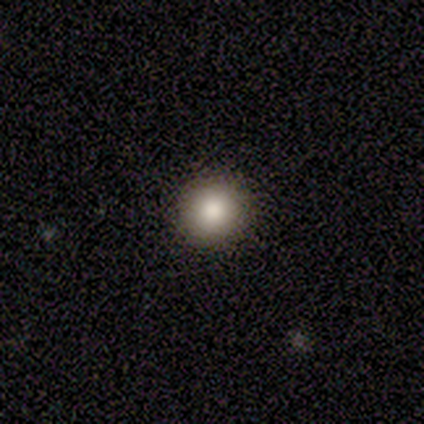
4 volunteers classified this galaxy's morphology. smooth_or_featured: smooth (p=1.00)
how_rounded: round (p=1.00)
merging: none (p=1.00)